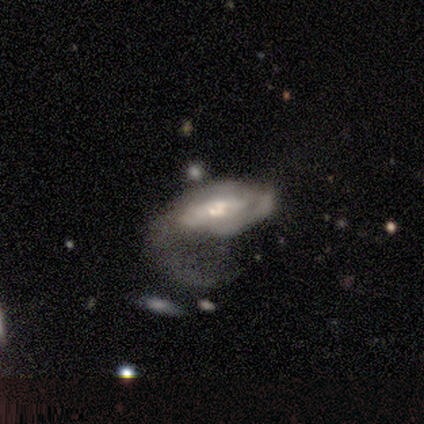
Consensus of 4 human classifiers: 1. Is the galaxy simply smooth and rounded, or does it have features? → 75% featured or disk, 25% star or artifact, 0% smooth.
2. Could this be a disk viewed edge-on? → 100% no, 0% yes.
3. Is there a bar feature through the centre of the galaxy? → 67% no, 33% weak, 0% strong.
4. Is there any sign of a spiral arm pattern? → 67% yes, 33% no.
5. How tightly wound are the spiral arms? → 50% tight (tied), 50% loose (tied), 0% medium.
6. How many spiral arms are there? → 50% 3 (tied), 50% can't tell (tied), 0% 1, 0% 2, 0% 4, 0% more than 4.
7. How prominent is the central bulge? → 67% small, 33% moderate, 0% dominant, 0% large, 0% none.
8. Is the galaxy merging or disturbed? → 100% major disturbance, 0% none, 0% minor disturbance, 0% merger.